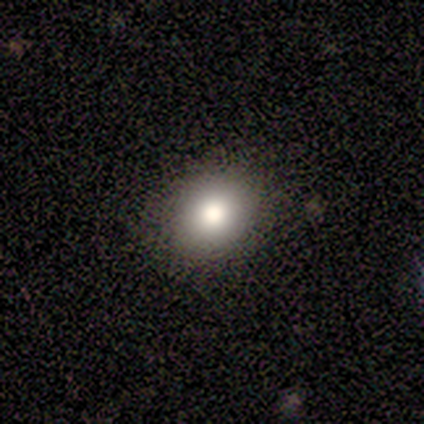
Smooth or featured? 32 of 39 (82%) said smooth. How rounded? 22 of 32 (69%) said round. Merging? 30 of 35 (86%) said none.